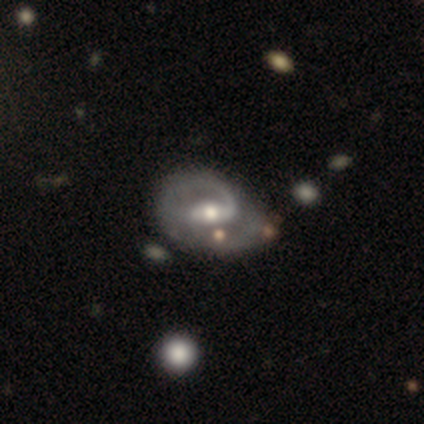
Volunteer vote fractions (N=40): Smooth or featured: featured or disk — 92% (smooth — 5%)
Edge-on disk: no — 97% (yes — 3%)
Bar: weak — 47% (strong — 31%)
Spiral arms: yes — 94% (no — 6%)
Spiral winding: medium — 41% (loose — 32%)
Spiral arm count: 2 — 59% (1 — 35%)
Bulge size: moderate — 78% (small — 11%)
Merging: minor disturbance — 28% (none — 23%)